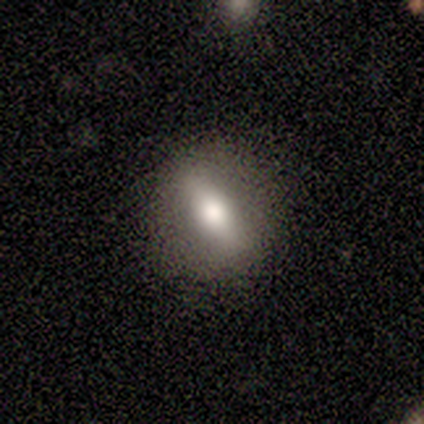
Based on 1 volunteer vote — smooth_or_featured: featured or disk (p=1.00)
disk_edge_on: yes (p=1.00)
edge_on_bulge: rounded (p=1.00)
merging: none (p=1.00)